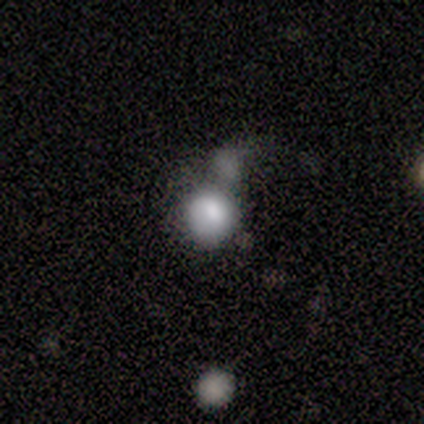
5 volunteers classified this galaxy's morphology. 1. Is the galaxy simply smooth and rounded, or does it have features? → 40% featured or disk (tied), 40% star or artifact (tied), 20% smooth.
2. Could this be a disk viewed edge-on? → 100% no, 0% yes.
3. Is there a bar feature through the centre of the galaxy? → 100% no, 0% strong, 0% weak.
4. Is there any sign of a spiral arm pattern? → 100% no, 0% yes.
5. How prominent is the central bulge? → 50% moderate (tied), 50% small (tied), 0% dominant, 0% large, 0% none.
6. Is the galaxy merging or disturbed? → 67% merger, 33% none, 0% minor disturbance, 0% major disturbance.